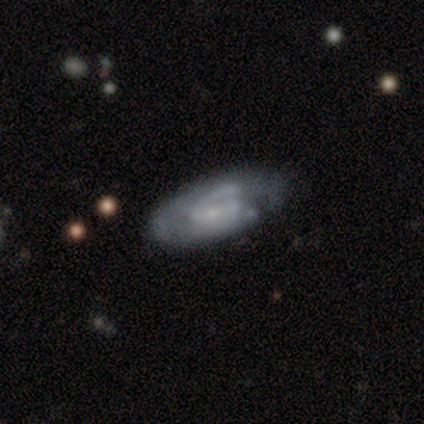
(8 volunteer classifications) This is likely a featured or disk galaxy (62%). It is clearly not viewed edge-on (100%). Bar: marginally strong (40%, tied with no). Spiral arm pattern: clearly yes (80%). Spiral arm count: possibly 2 (50%, tied with can't tell). Spiral winding: clearly medium (100%). Central bulge: likely small (60%). Merging: possibly minor disturbance (50%).